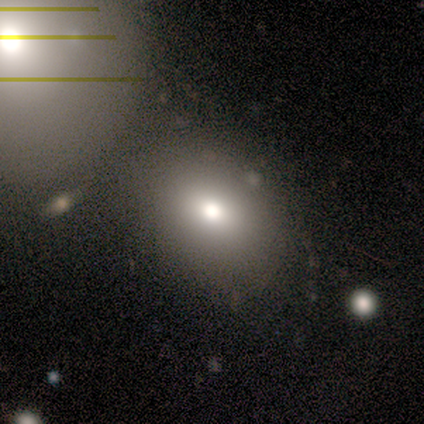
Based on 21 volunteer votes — Volunteers were most divided on "how rounded": round: 59%, in between: 41%, cigar-shaped: 0%. Remaining: smooth or featured — smooth (81%); merging — merger (41%).